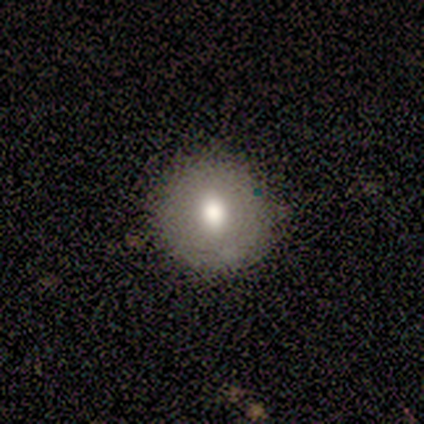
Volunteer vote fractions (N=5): This is likely a smooth galaxy (60%). How rounded: clearly round (100%). Merging: likely none (75%).